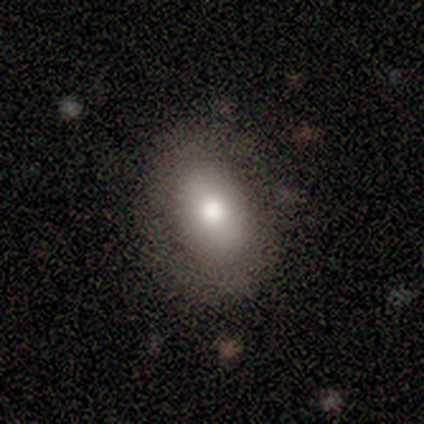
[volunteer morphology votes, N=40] smooth_or_featured: smooth (p=0.62) [alt: featured or disk p=0.35]
how_rounded: in between (p=0.80) [alt: round p=0.20]
merging: none (p=0.49) [alt: minor disturbance p=0.10]